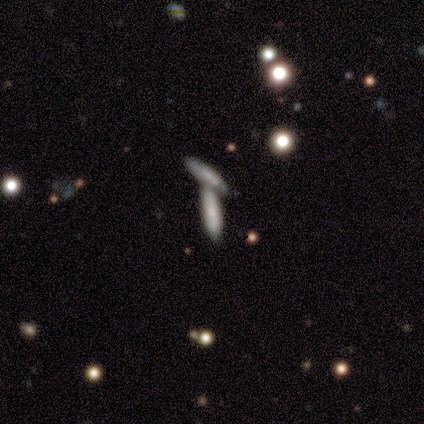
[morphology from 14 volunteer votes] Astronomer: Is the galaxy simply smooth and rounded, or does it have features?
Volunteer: smooth — 71%.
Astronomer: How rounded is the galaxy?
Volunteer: cigar-shaped — 80%.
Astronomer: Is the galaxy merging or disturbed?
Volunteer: merger — 57% (runner-up: none, 36%).